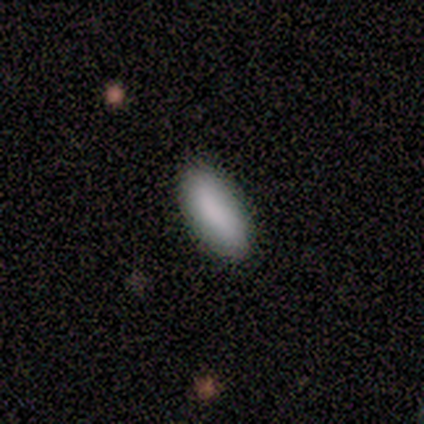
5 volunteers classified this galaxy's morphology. smooth 60%, featured or disk 20%, star or artifact 20%. Down the decision tree: how rounded — in between (67%); merging — none (100%).